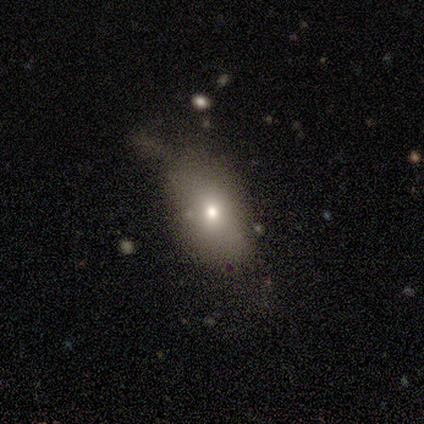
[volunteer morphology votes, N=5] smooth 80%, featured or disk 20%, star or artifact 0%. Down the decision tree: how rounded — in between (100%); merging — none (40%, tied with major disturbance).